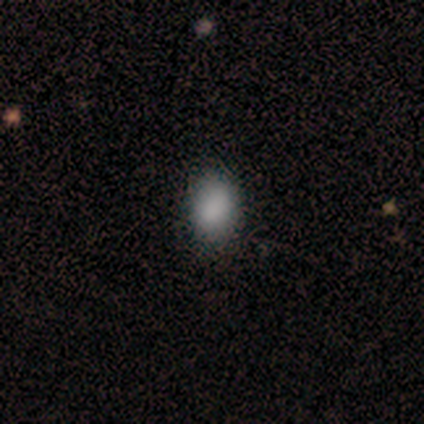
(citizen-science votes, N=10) This is clearly a smooth galaxy (100%). How rounded: clearly in between (90%). Merging: clearly none (90%).